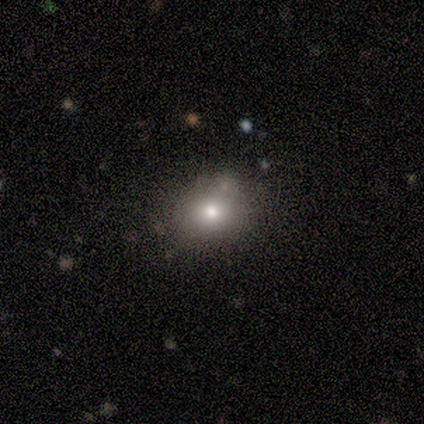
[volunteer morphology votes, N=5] smooth 80%, featured or disk 20%, star or artifact 0%. Down the decision tree: how rounded — round (50%, tied with in between); merging — none (80%).